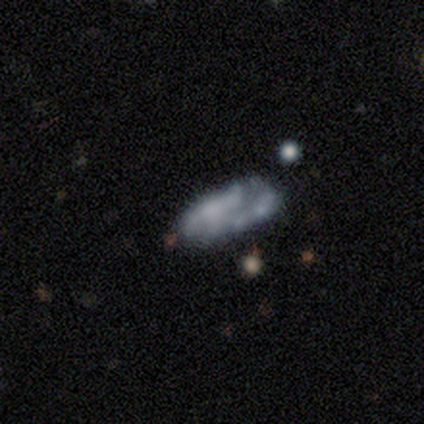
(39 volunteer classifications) Overall: featured or disk (59%; smooth 36%). Edge-on disk: no (91%). Bar: no (76%). Spiral arms: no (71%). Bulge size: none (81%). Merging: none (57%; major disturbance 22%).